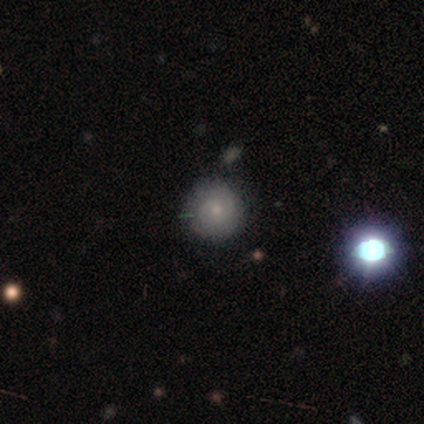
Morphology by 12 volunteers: Q: Smooth or featured?
A: smooth (58%); runner-up: featured or disk (33%)
Q: How rounded?
A: round (100%)
Q: Merging?
A: none (73%); runner-up: minor disturbance (18%)